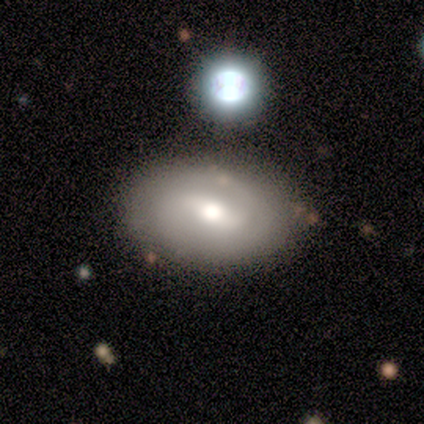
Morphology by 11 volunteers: featured or disk 55%, smooth 45%, star or artifact 0%. Down the decision tree: edge-on disk — no (100%); bar — strong (67%); spiral arms — yes (50%, tied with no); spiral arm count — 2 (100%); spiral winding — loose (67%); bulge size — moderate (67%); merging — none (64%).